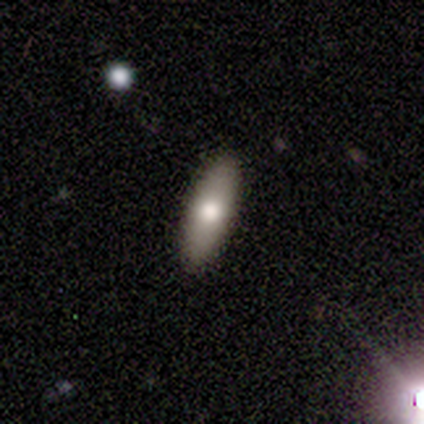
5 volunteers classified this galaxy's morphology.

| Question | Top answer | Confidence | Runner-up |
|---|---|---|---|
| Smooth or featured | smooth | 60% | featured or disk (40%) |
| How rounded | cigar-shaped | 100% | — |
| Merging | none | 100% | — |